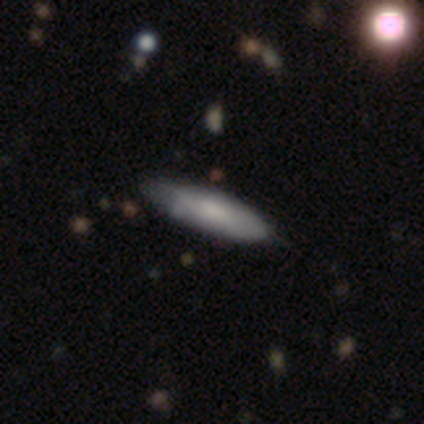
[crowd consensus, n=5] Q: Smooth or featured?
A: smooth (100%)
Q: How rounded?
A: cigar-shaped (60%); runner-up: in between (40%)
Q: Merging?
A: none (60%); runner-up: minor disturbance (40%)